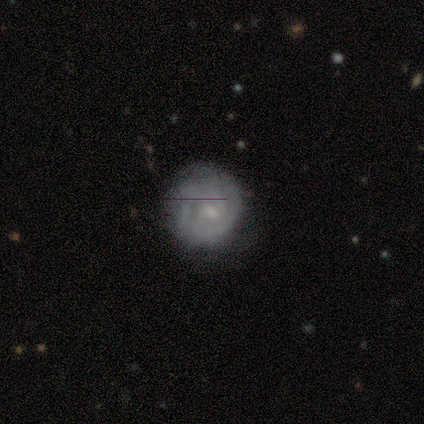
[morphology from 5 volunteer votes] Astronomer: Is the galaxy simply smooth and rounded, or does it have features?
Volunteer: featured or disk — 80%.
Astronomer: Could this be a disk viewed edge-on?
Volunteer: no — 100%.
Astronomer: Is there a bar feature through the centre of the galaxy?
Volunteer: no — 75%.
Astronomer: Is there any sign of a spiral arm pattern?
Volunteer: yes — 75%.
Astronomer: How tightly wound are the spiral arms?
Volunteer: tight — 100%.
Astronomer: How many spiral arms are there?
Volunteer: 2 — 67%.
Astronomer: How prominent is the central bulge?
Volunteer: small — 75%.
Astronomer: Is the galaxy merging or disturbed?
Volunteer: none — 80%.